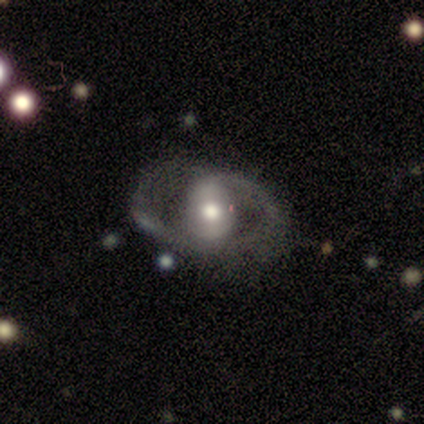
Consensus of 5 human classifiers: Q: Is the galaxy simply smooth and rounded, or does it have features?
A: featured or disk — 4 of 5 (80%).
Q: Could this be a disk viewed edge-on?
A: no — 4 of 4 (100%).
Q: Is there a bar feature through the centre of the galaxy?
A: weak — 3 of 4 (75%).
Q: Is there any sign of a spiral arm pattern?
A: yes — 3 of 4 (75%).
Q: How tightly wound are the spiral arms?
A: tight — 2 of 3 (67%).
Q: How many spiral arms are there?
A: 2 — 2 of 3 (67%).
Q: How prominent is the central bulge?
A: moderate — 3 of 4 (75%).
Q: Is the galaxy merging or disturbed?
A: none — 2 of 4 (50%, tied with minor disturbance).